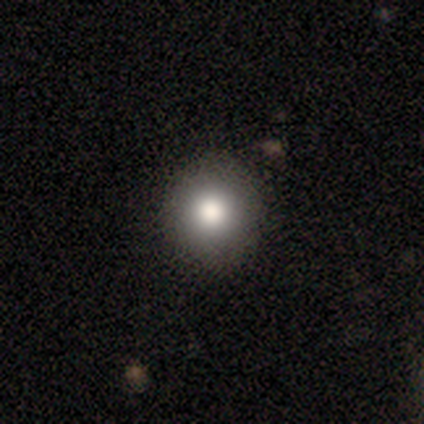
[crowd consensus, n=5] A smooth galaxy with no disk features (100%) that is round (100%).

Vote fractions:
- Smooth or featured? smooth: 100% / featured or disk: 0% / star or artifact: 0%
- How rounded? round: 100% / in between: 0% / cigar-shaped: 0%
- Merging? none: 100% / minor disturbance: 0% / major disturbance: 0% / merger: 0%